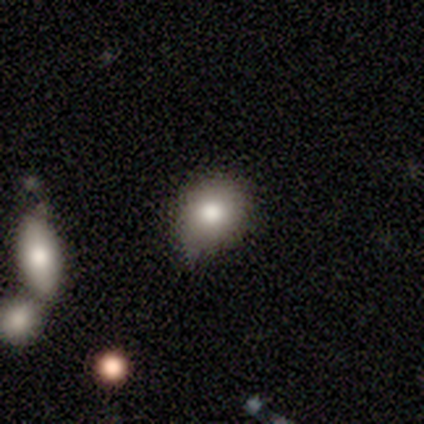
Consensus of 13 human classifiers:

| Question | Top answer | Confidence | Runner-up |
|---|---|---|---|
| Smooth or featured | smooth | 77% | featured or disk (23%) |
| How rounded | round | 60% | in between (40%) |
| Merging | none | 54% | minor disturbance (46%) |